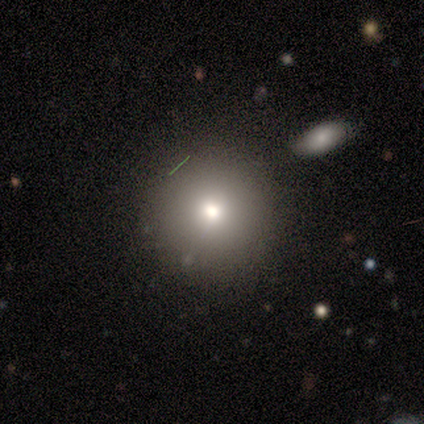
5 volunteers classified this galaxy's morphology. This is likely a smooth galaxy (60%). How rounded: clearly round (100%). Merging: clearly none (100%).